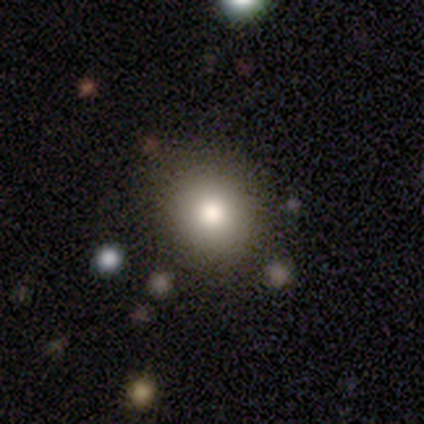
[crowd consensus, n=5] smooth_or_featured: smooth (p=1.00)
how_rounded: round (p=0.80) [alt: in between p=0.20]
merging: none (p=0.60) [alt: minor disturbance p=0.20]